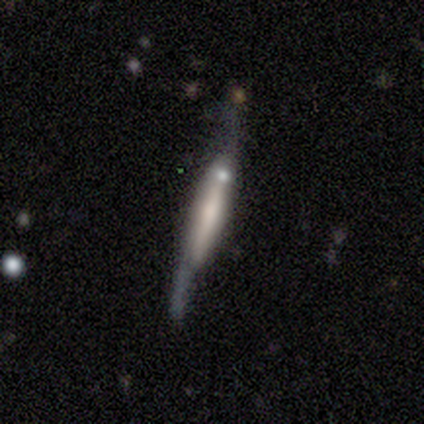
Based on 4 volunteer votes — This appears to be a featured or disk galaxy (100%) viewed edge-on (75%) with a rounded central bulge (67%). Merging: none (50%).